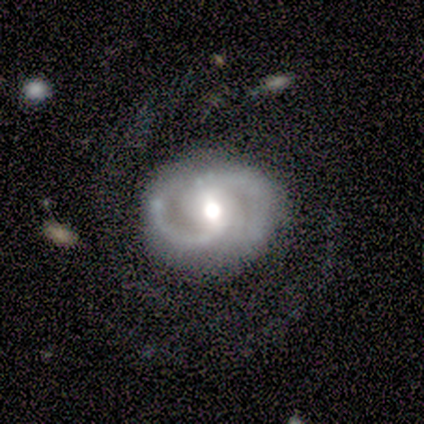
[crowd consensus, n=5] Smooth or featured? featured or disk (100%)
Edge-on disk? no (100%)
Bar? weak (60%)
Spiral arms? yes (100%)
Spiral winding? medium (100%)
Spiral arm count? 2 (80%)
Bulge size? moderate (80%)
Merging? none (100%)